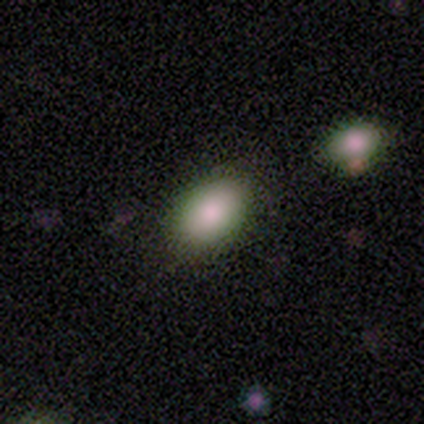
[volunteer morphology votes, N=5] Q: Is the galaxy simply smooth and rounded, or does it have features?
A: smooth — 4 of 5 (80%).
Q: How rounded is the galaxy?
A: in between — 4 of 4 (100%).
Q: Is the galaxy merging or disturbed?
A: none — 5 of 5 (100%).